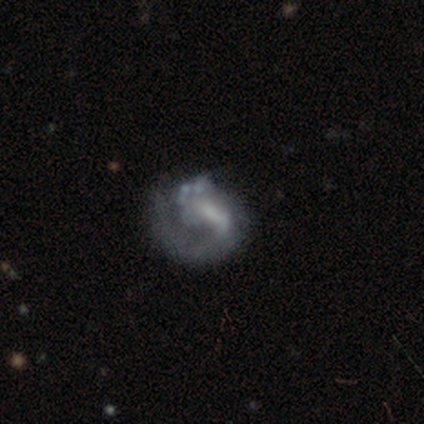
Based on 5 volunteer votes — Q: Smooth or featured?
A: featured or disk (60%); runner-up: star or artifact (40%)
Q: Edge-on disk?
A: no (100%)
Q: Bar?
A: no (67%); runner-up: weak (33%)
Q: Spiral arms?
A: no (67%); runner-up: yes (33%)
Q: Bulge size?
A: none (67%); runner-up: moderate (33%)
Q: Merging?
A: none (67%); runner-up: major disturbance (33%)